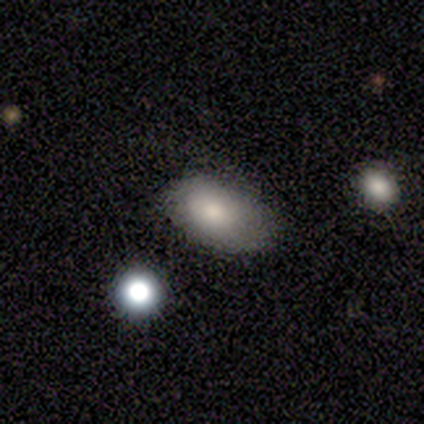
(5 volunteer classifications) smooth-or-featured: smooth: 100% | featured or disk: 0% | star or artifact: 0%
  how-rounded: in between: 100% | round: 0% | cigar-shaped: 0%
  merging: none: 60% | minor disturbance: 20% | major disturbance: 20% | merger: 0%